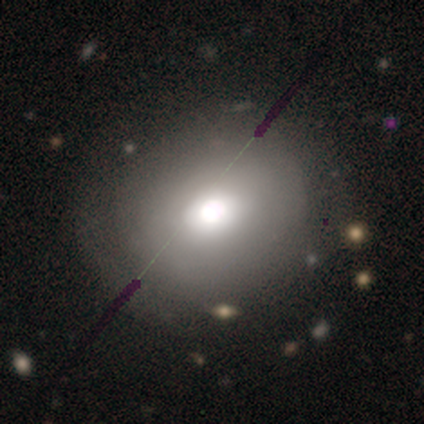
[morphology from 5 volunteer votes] Smooth or featured?
  - smooth: 60% *
  - featured or disk: 20%
  - star or artifact: 20%
How rounded?
  - round: 100% *
  - in between: 0%
  - cigar-shaped: 0%
Merging?
  - none: 50% *
  - minor disturbance: 25%
  - major disturbance: 25%
  - merger: 0%